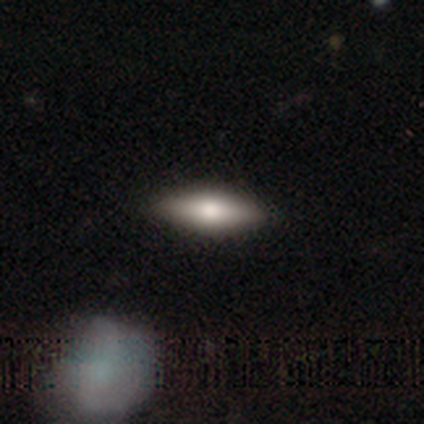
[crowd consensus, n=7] Smooth or featured? smooth (71%)
How rounded? cigar-shaped (60%)
Merging? none (86%)